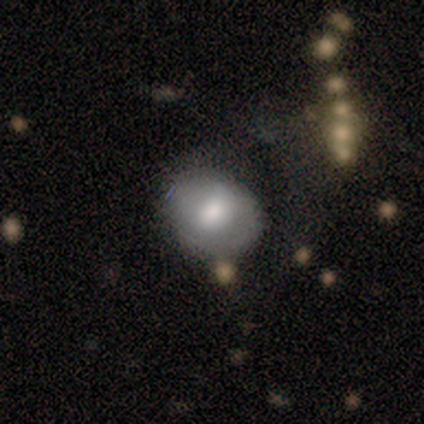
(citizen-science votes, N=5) smooth-or-featured: smooth: 100% | featured or disk: 0% | star or artifact: 0%
  how-rounded: round: 100% | in between: 0% | cigar-shaped: 0%
  merging: none: 80% | minor disturbance: 20% | major disturbance: 0% | merger: 0%